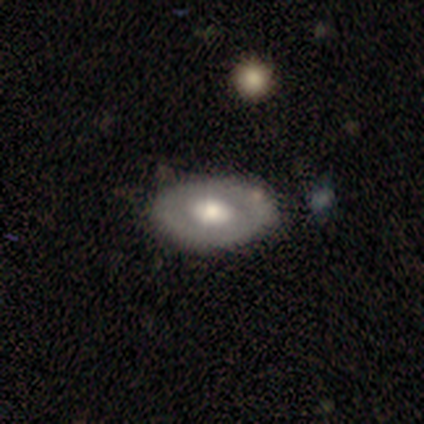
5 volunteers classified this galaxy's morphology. Q: Smooth or featured?
A: featured or disk (80%); runner-up: smooth (20%)
Q: Edge-on disk?
A: no (75%); runner-up: yes (25%)
Q: Bar?
A: no (100%)
Q: Spiral arms?
A: no (100%)
Q: Bulge size?
A: large (33%); tied with: moderate (33%); small (33%)
Q: Merging?
A: none (100%)